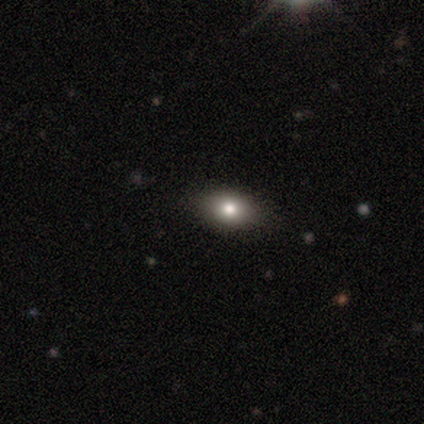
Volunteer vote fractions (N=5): smooth-or-featured: smooth: 40% (tied) | star or artifact: 40% (tied) | featured or disk: 20%
  how-rounded: in between: 100% | round: 0% | cigar-shaped: 0%
  merging: none: 100% | minor disturbance: 0% | major disturbance: 0% | merger: 0%